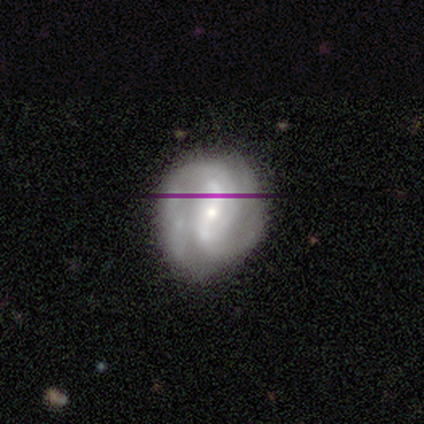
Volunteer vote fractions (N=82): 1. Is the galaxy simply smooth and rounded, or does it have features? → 83% featured or disk, 10% star or artifact, 7% smooth.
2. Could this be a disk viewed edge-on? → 99% no, 1% yes.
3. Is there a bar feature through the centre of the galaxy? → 45% strong, 30% weak, 25% no.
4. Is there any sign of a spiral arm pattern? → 96% yes, 4% no.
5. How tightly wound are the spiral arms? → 39% tight, 36% medium, 25% loose.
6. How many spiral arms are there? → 69% 2, 12% 3, 12% can't tell, 3% 1, 3% 4, 0% more than 4.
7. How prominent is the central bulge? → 49% small, 42% moderate, 6% large, 1% dominant, 1% none.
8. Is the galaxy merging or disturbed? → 69% none, 24% minor disturbance, 4% major disturbance, 3% merger.